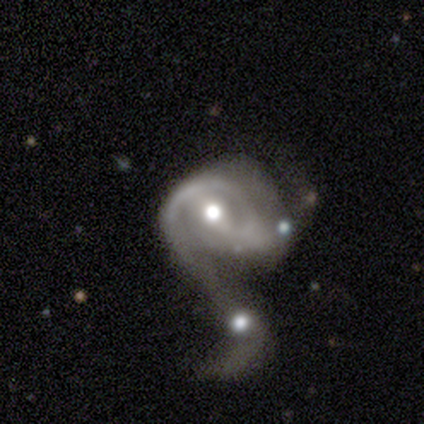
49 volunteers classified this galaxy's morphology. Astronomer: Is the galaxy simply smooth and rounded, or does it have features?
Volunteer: featured or disk — 80%.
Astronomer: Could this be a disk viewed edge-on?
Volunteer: no — 97%.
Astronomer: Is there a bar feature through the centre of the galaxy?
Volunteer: weak — 45% (runner-up: strong, 29%).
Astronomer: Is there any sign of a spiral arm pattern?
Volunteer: yes — 74%.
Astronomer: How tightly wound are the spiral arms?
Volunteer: medium — 39% (runner-up: tight, 36%).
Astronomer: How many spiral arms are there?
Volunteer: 2 — 36% (runner-up: 1, 25%).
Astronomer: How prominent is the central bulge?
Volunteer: moderate — 63%.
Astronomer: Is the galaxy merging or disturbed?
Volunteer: merger — 87%.